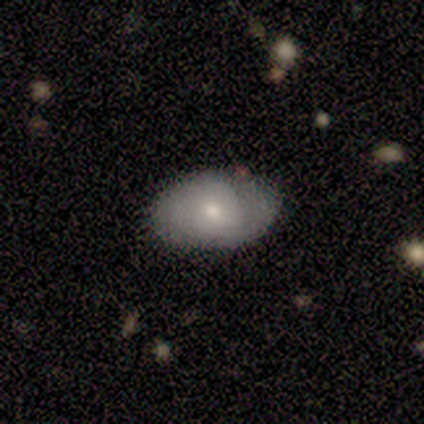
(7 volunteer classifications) This is possibly a smooth galaxy (57%). How rounded: possibly in between (50%). Merging: possibly none (57%).